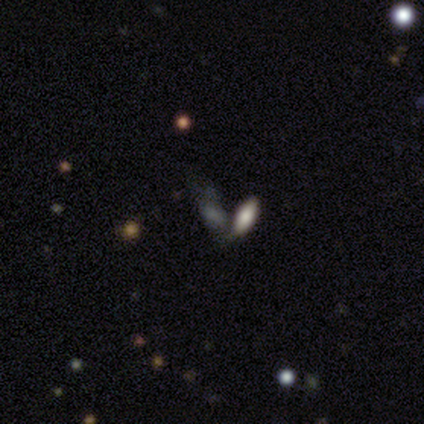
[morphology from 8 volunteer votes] Smooth or featured? 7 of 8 (88%) said smooth. How rounded? 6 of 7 (86%) said in between. Merging? 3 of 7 (43%) said merger.